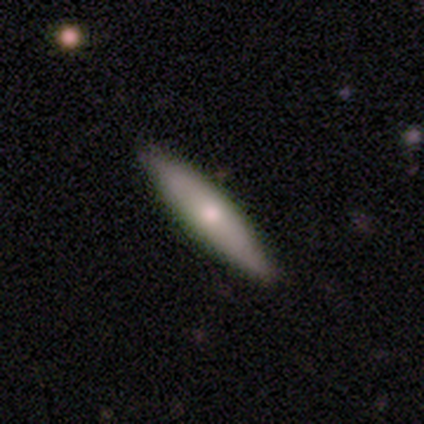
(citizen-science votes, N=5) This is likely a featured or disk galaxy (60%). It is likely viewed edge-on (67%). Edge-on bulge: clearly rounded (100%). Merging: clearly none (100%).